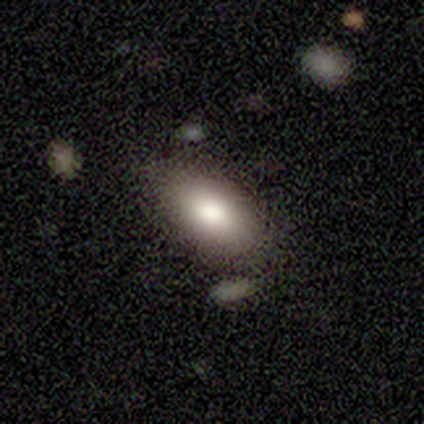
Q: Smooth or featured?
A: smooth (100%)
Q: How rounded?
A: in between (100%)
Q: Merging?
A: none (100%)